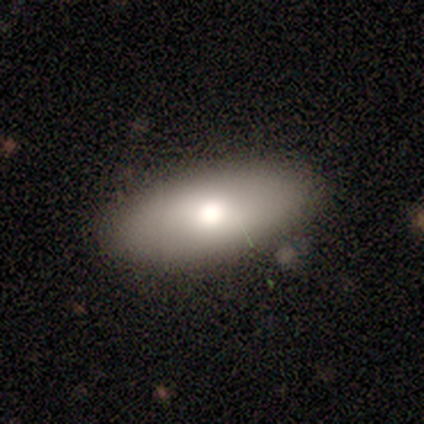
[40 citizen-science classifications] Morphology: type=smooth (78%); roundness=in between (90%); merging=none (79%).